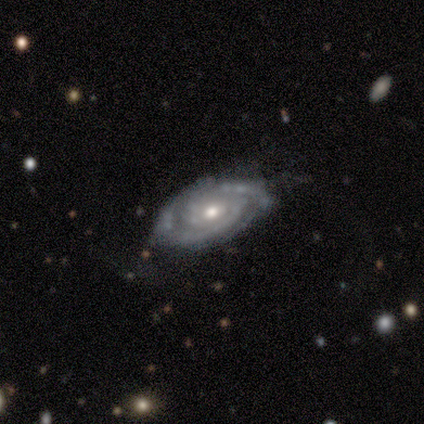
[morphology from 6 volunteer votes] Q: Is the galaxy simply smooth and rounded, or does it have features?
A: featured or disk — 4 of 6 (67%).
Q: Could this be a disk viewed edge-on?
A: no — 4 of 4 (100%).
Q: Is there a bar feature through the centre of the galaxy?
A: no — 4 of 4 (100%).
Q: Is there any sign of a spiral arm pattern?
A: yes — 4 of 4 (100%).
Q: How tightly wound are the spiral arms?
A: tight — 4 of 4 (100%).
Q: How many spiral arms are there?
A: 2 — 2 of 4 (50%, tied with can't tell).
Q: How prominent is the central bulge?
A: moderate — 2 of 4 (50%, tied with small).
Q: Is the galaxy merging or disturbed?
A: none — 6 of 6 (100%).